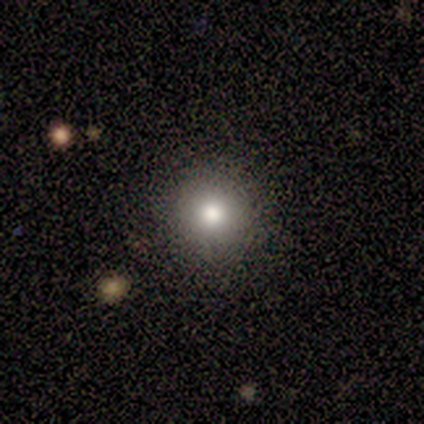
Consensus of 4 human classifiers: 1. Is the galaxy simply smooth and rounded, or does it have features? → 75% smooth, 25% star or artifact, 0% featured or disk.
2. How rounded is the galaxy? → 100% round, 0% in between, 0% cigar-shaped.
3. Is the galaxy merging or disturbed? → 67% none, 33% minor disturbance, 0% major disturbance, 0% merger.